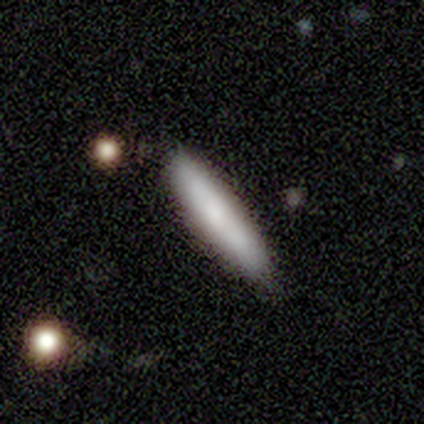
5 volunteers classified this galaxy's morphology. Smooth or featured: smooth — 80% (featured or disk — 20%)
How rounded: cigar-shaped — 100%
Merging: none — 80% (merger — 20%)